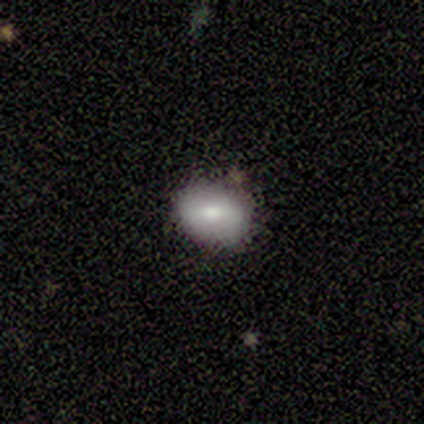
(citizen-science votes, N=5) smooth_or_featured: featured or disk (p=0.60) [alt: smooth p=0.40]
disk_edge_on: no (p=1.00)
bar: strong (p=0.33) [tied with: weak p=0.33, no p=0.33]
has_spiral_arms: no (p=0.67) [alt: yes p=0.33]
bulge_size: moderate (p=0.67) [alt: small p=0.33]
merging: none (p=1.00)